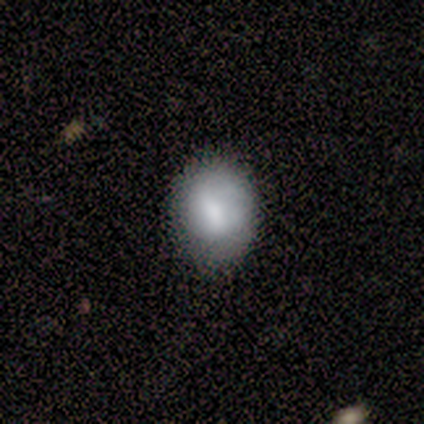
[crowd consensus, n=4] Smooth or featured? 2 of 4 (50%) said smooth. How rounded? 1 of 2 (50%, tied with in between) said round. Merging? 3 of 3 (100%) said none.